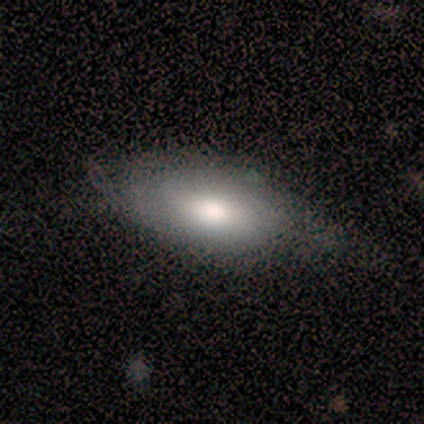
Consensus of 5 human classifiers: This is clearly a smooth galaxy (80%). How rounded: likely in between (75%). Merging: possibly none (50%, tied with minor disturbance).